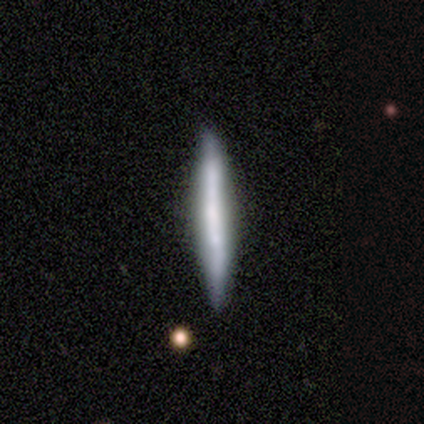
This appears to be a smooth galaxy with no disk features (64%) that is cigar-shaped (86%). Merging: none (100%).